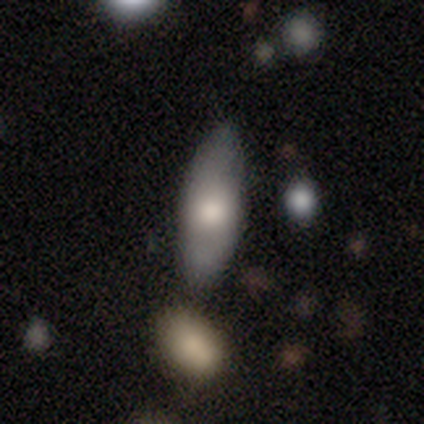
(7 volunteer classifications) smooth_or_featured: smooth (p=0.71) [alt: featured or disk p=0.29]
how_rounded: cigar-shaped (p=0.60) [alt: in between p=0.40]
merging: none (p=0.71) [alt: minor disturbance p=0.29]